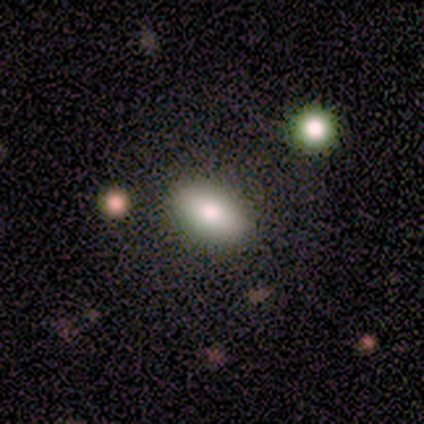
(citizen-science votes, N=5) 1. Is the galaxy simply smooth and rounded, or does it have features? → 80% smooth, 20% featured or disk, 0% star or artifact.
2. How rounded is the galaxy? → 50% round (tied), 50% in between (tied), 0% cigar-shaped.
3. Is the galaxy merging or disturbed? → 40% none (tied), 40% minor disturbance (tied), 20% major disturbance, 0% merger.